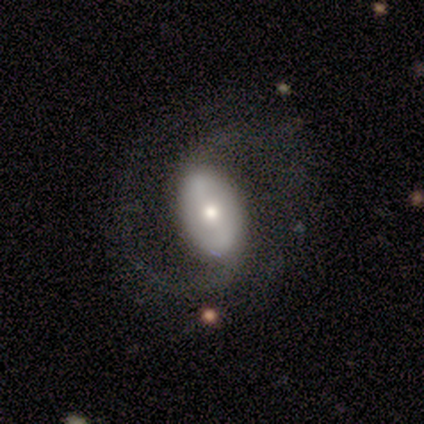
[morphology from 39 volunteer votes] type=featured or disk (82%); edge-on=no (91%); bar=strong (41%); spiral arms=yes (100%); winding=medium (55%); arm count=2 (90%); bulge=moderate (62%); merging=none (66%).